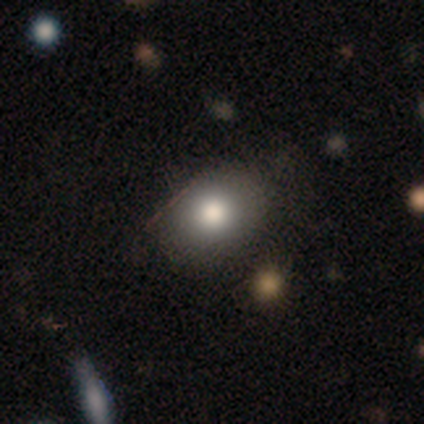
Smooth or featured? smooth (79%)
How rounded? in between (49%)
Merging? none (75%)